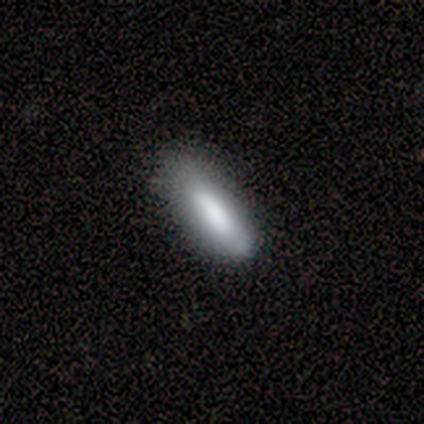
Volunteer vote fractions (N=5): Volunteers were most divided on "smooth or featured": smooth: 60%, featured or disk: 20%, star or artifact: 20%. More confident: how rounded — cigar-shaped (100%); merging — none (75%).